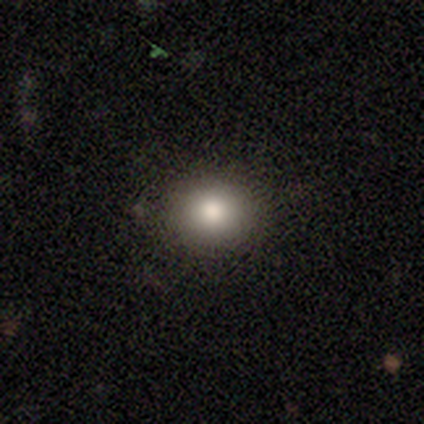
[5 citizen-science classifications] Volunteers were most divided on "how rounded": round: 50%, in between: 25%, cigar-shaped: 25%. More confident: smooth or featured — smooth (80%); merging — none (80%).